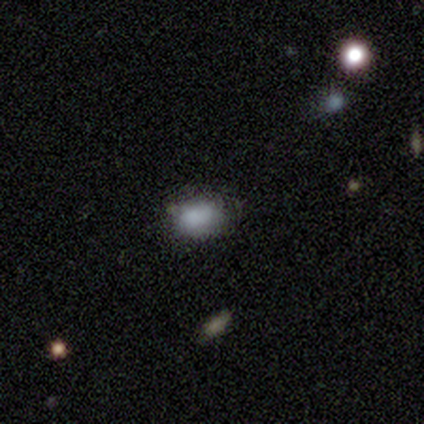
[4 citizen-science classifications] This is likely a smooth galaxy (75%). How rounded: clearly in between (100%). Merging: possibly none (50%, tied with minor disturbance).